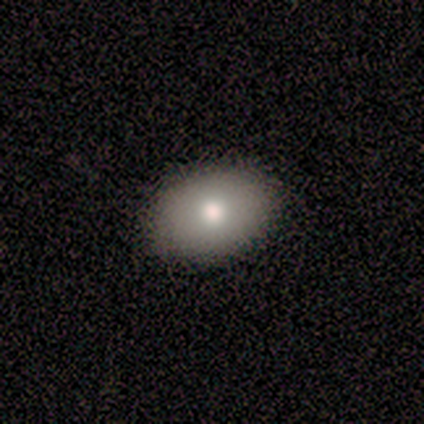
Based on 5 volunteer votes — Volunteers were most divided on "how rounded": in between: 75%, round: 25%, cigar-shaped: 0%. More confident: merging — none (100%); smooth or featured — smooth (80%).